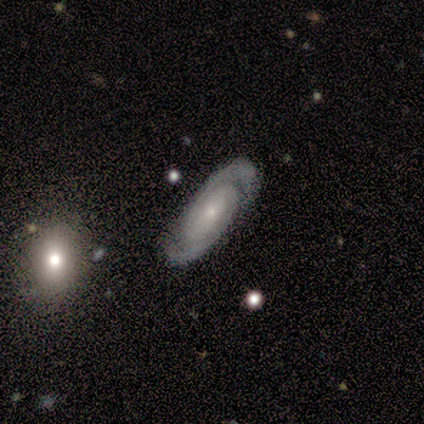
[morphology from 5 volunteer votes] Volunteers were most divided on "bar" (2-way tie): weak: 50%, no: 50%, strong: 0%; "spiral winding" (2-way tie): tight: 50%, medium: 50%, loose: 0%. More confident: edge-on disk — no (100%); spiral arms — yes (100%); spiral arm count — 2 (100%); smooth or featured — featured or disk (80%); merging — none (80%); bulge size — small (75%).